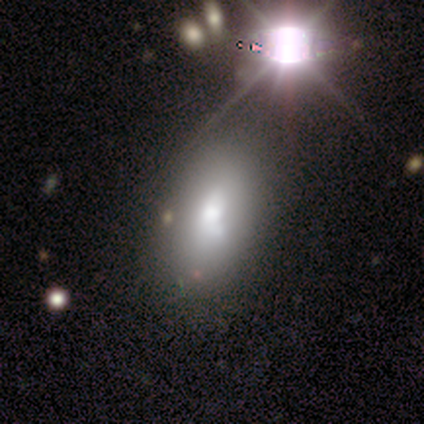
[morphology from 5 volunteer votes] A smooth galaxy with no disk features (80%) that is in between round and cigar-shaped (75%). Merging: none (40%, tied with minor disturbance).